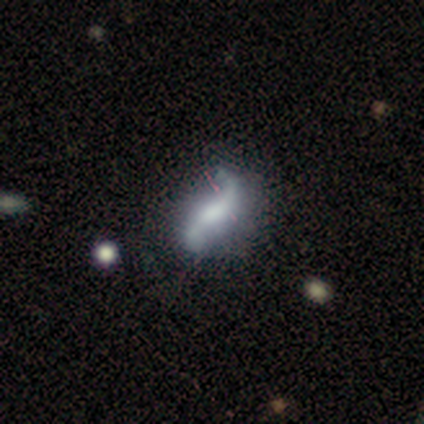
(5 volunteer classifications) This appears to be a featured or disk galaxy (60%) with a strong bar (33%, tied with weak and no), 2 (100%) loose (100%) spiral arms (100%) and no central bulge (67%). Merging: major disturbance (75%).